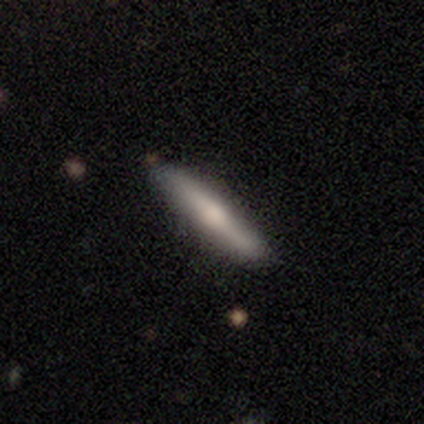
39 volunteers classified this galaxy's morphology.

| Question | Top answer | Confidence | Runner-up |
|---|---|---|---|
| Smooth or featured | featured or disk | 56% | smooth (44%) |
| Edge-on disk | yes | 91% | no (9%) |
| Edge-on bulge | rounded | 75% | boxy (15%) |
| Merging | none | 90% | minor disturbance (10%) |